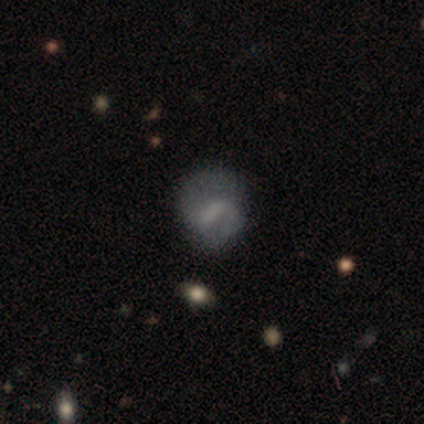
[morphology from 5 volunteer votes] Smooth or featured? 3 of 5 (60%) said featured or disk. Edge-on disk? 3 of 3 (100%) said no. Bar? 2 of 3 (67%) said weak. Spiral arms? 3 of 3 (100%) said yes. Spiral winding? 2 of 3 (67%) said medium. Spiral arm count? 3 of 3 (100%) said 2. Bulge size? 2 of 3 (67%) said none. Merging? 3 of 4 (75%) said none.